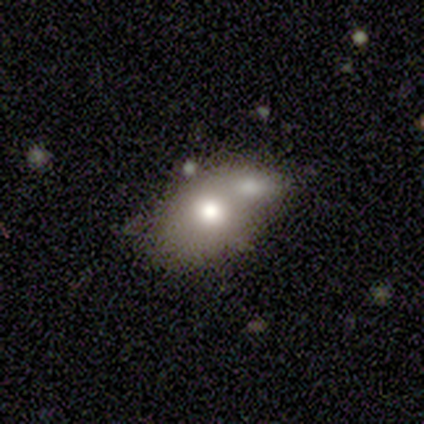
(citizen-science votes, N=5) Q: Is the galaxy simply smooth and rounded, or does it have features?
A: smooth — 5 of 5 (100%).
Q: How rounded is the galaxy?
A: in between — 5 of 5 (100%).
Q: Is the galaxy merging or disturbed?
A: merger — 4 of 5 (80%).